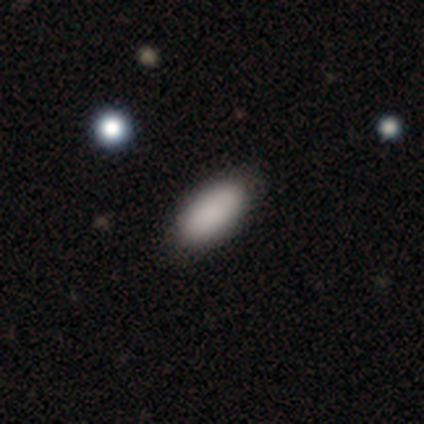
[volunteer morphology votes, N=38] Volunteers were most divided on "how rounded": in between: 85%, cigar-shaped: 12%, round: 3%. More confident: merging — none (97%); smooth or featured — smooth (87%).